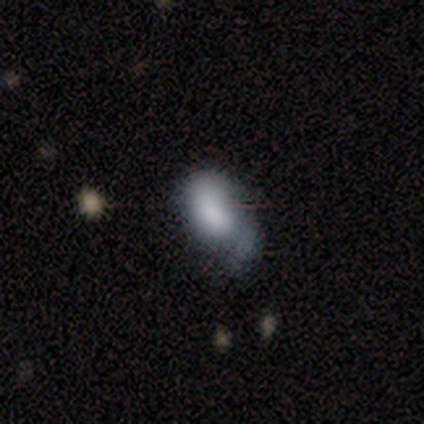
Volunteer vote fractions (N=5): Smooth or featured?
  - smooth: 80% *
  - featured or disk: 20%
  - star or artifact: 0%
How rounded?
  - in between: 100% *
  - round: 0%
  - cigar-shaped: 0%
Merging?
  - minor disturbance: 40% * (tied)
  - major disturbance: 40% * (tied)
  - none: 20%
  - merger: 0%